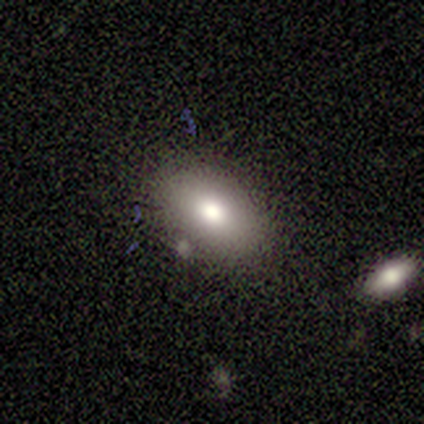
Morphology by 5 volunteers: Q: Smooth or featured?
A: smooth (80%); runner-up: featured or disk (20%)
Q: How rounded?
A: in between (75%); runner-up: round (25%)
Q: Merging?
A: none (80%); runner-up: minor disturbance (20%)